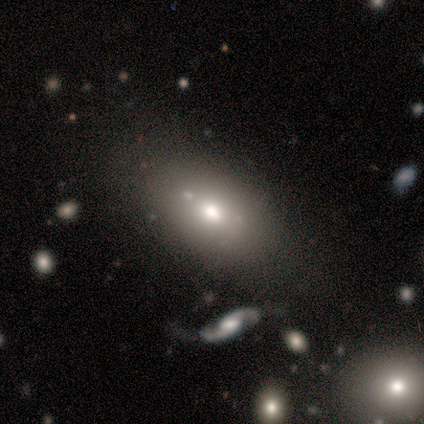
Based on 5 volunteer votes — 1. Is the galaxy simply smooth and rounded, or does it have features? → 60% smooth, 20% featured or disk, 20% star or artifact.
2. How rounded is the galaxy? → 100% in between, 0% round, 0% cigar-shaped.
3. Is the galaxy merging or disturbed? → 75% none, 25% merger, 0% minor disturbance, 0% major disturbance.